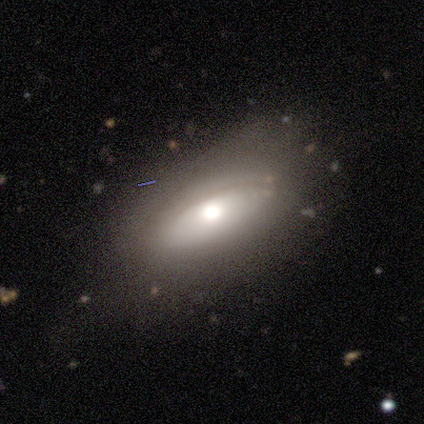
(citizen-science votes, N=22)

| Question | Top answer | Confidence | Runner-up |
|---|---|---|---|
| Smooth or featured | smooth | 50% | featured or disk (41%) |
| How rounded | in between | 82% | round (9%) |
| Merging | none | 30% | minor disturbance (20%) |